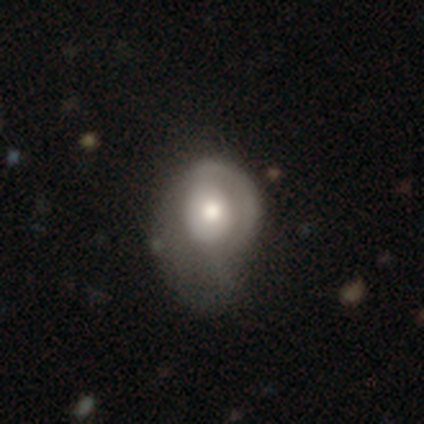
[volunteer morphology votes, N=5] Smooth or featured?
  - smooth: 80% *
  - featured or disk: 20%
  - star or artifact: 0%
How rounded?
  - in between: 75% *
  - round: 25%
  - cigar-shaped: 0%
Merging?
  - major disturbance: 60% *
  - minor disturbance: 20%
  - merger: 20%
  - none: 0%